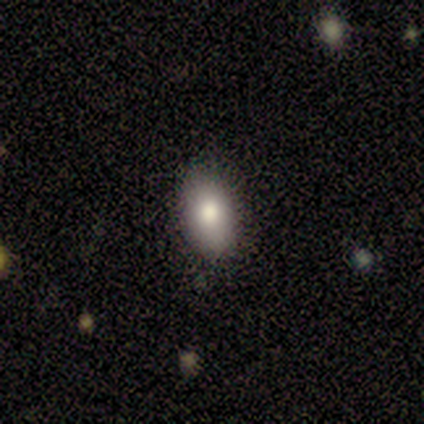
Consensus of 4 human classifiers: Overall: smooth (50%; featured or disk 25%). How rounded: in between (100%). Merging: none (100%).